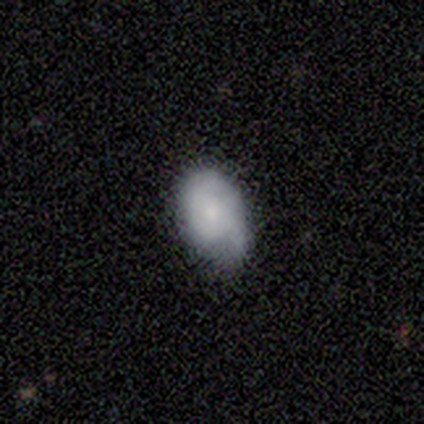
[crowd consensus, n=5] Smooth or featured? 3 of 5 (60%) said featured or disk. Edge-on disk? 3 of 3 (100%) said no. Bar? 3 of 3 (100%) said no. Spiral arms? 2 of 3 (67%) said yes. Spiral winding? 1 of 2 (50%, tied with loose) said tight. Spiral arm count? 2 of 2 (100%) said 1. Bulge size? 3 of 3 (100%) said small. Merging? 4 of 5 (80%) said minor disturbance.